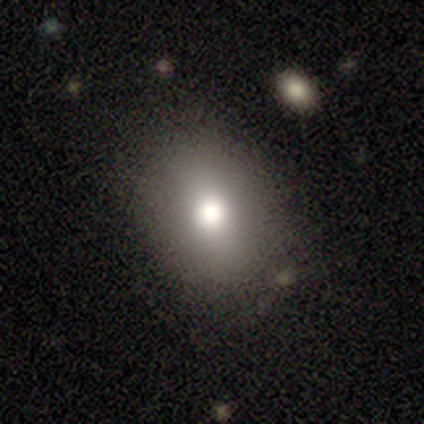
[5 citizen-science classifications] Smooth or featured? smooth (60%)
How rounded? round (67%)
Merging? none (50%, tied with minor disturbance)